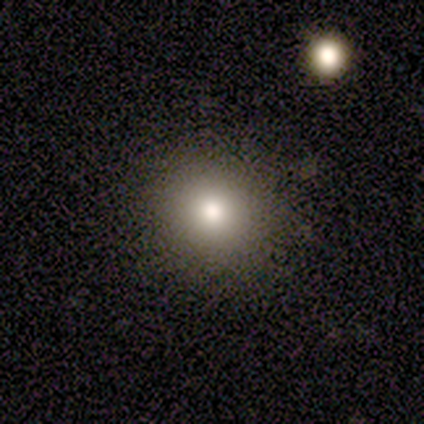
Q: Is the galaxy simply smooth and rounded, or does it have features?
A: smooth — 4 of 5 (80%).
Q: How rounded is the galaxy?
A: round — 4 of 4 (100%).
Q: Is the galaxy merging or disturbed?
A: none — 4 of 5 (80%).